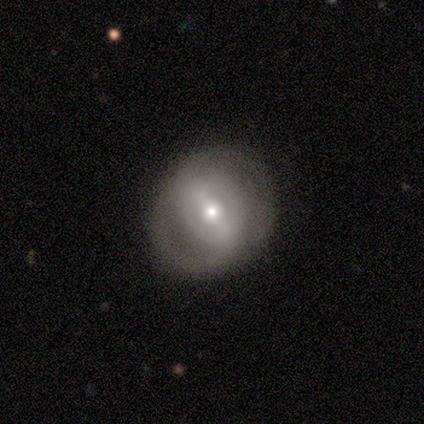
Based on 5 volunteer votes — Smooth or featured? 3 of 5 (60%) said smooth. How rounded? 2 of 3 (67%) said round. Merging? 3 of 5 (60%) said none.